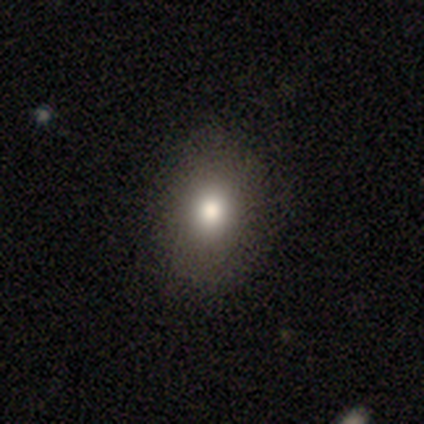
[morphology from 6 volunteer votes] Q: Smooth or featured?
A: smooth (67%); runner-up: star or artifact (33%)
Q: How rounded?
A: in between (75%); runner-up: round (25%)
Q: Merging?
A: none (75%); runner-up: minor disturbance (25%)